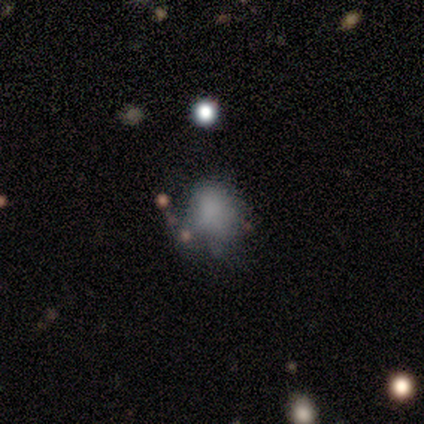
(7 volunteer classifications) Q: Smooth or featured?
A: smooth (57%); runner-up: featured or disk (29%)
Q: How rounded?
A: round (50%); tied with: in between (50%)
Q: Merging?
A: none (83%); runner-up: minor disturbance (17%)